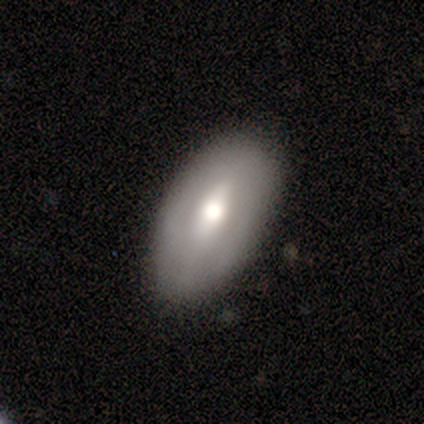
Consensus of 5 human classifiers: smooth_or_featured: featured or disk (p=0.60) [alt: smooth p=0.40]
disk_edge_on: no (p=1.00)
bar: weak (p=1.00)
has_spiral_arms: no (p=1.00)
bulge_size: moderate (p=0.67) [alt: large p=0.33]
merging: none (p=0.80) [alt: minor disturbance p=0.20]